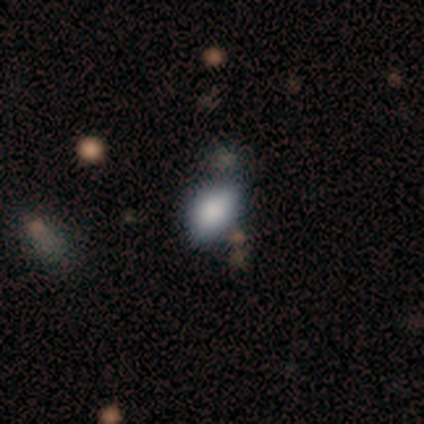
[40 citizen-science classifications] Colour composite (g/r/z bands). It shows a smooth galaxy with no disk features (72%) that is in between round and cigar-shaped (76%). Merging: none (64%).